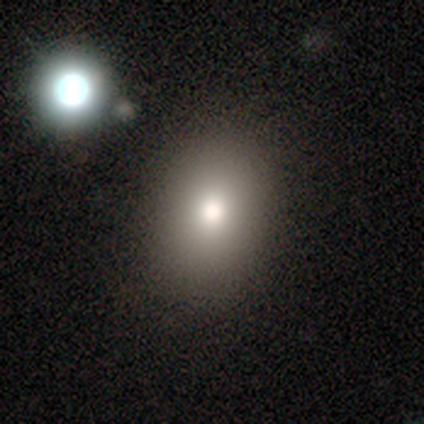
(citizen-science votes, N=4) smooth_or_featured: smooth (p=0.75) [alt: star or artifact p=0.25]
how_rounded: round (p=0.67) [alt: in between p=0.33]
merging: none (p=1.00)